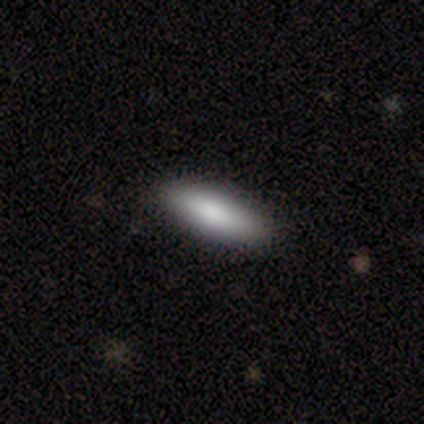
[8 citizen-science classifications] Overall: smooth (75%). How rounded: cigar-shaped (83%). Merging: none (100%).